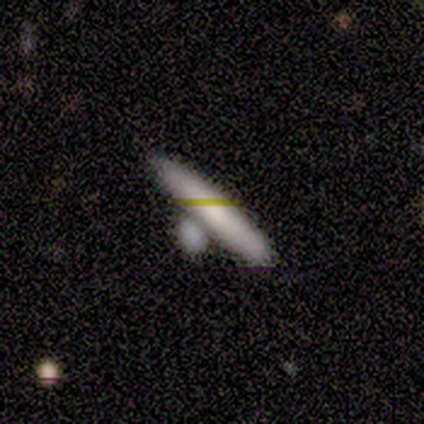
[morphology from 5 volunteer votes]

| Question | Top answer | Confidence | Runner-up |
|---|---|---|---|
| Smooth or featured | smooth | 40% | tied: featured or disk (40%) |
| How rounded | in between | 50% | tied: cigar-shaped (50%) |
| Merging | none | 75% | merger (25%) |